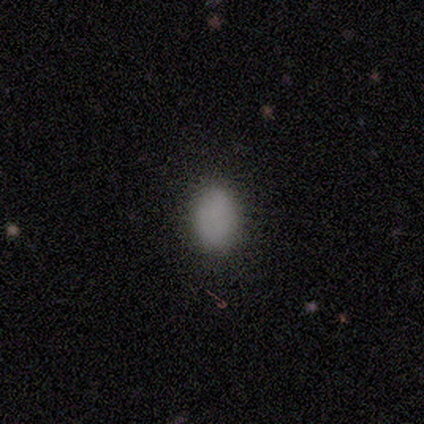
Morphology: type=smooth (100%); roundness=in between (80%); merging=none (100%).